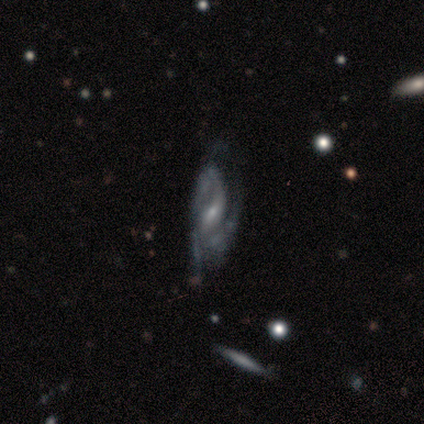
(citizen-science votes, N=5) A featured or disk galaxy (80%) with a weak bar (67%), 2 (67%) tight (67%) spiral arms (100%) and a small central bulge (100%).

Vote fractions:
- Smooth or featured? featured or disk: 80% / star or artifact: 20% / smooth: 0%
- Edge-on disk? no: 75% / yes: 25%
- Bar? weak: 67% / strong: 33% / no: 0%
- Spiral arms? yes: 100% / no: 0%
- Spiral winding? tight: 67% / medium: 33% / loose: 0%
- Spiral arm count? 2: 67% / 3: 33% / 1: 0% / 4: 0% / more than 4: 0% / can't tell: 0%
- Bulge size? small: 100% / dominant: 0% / large: 0% / moderate: 0% / none: 0%
- Merging? none: 50% (tied) / minor disturbance: 50% (tied) / major disturbance: 0% / merger: 0%